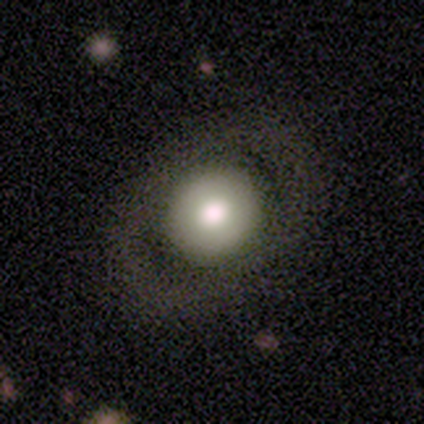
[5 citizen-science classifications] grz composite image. It shows a featured or disk galaxy (60%) with no bar (67%), no spiral arms (100%) and a large central bulge (67%). Merging: none (100%).